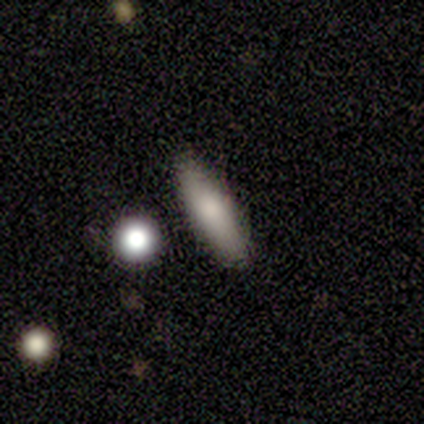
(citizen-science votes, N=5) A smooth galaxy with no disk features (100%) that is cigar-shaped (60%).

Vote fractions:
- Smooth or featured? smooth: 100% / featured or disk: 0% / star or artifact: 0%
- How rounded? cigar-shaped: 60% / in between: 40% / round: 0%
- Merging? none: 80% / minor disturbance: 20% / major disturbance: 0% / merger: 0%